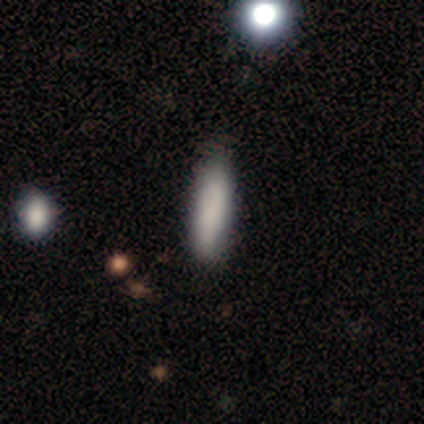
Smooth or featured: smooth — 100%
How rounded: cigar-shaped — 100%
Merging: none — 75% (merger — 25%)